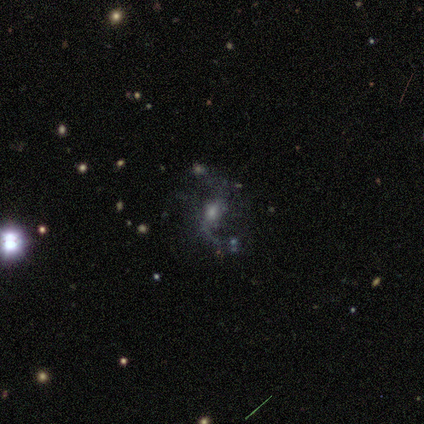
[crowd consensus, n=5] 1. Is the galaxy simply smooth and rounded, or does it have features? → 60% featured or disk, 40% star or artifact, 0% smooth.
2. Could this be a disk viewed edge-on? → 100% no, 0% yes.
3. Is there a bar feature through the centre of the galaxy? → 100% weak, 0% strong, 0% no.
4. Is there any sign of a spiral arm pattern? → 67% yes, 33% no.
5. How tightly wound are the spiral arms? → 100% loose, 0% tight, 0% medium.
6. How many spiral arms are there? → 100% 2, 0% 1, 0% 3, 0% 4, 0% more than 4, 0% can't tell.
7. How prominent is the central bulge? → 67% moderate, 33% small, 0% dominant, 0% large, 0% none.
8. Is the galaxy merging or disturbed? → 67% major disturbance, 33% merger, 0% none, 0% minor disturbance.